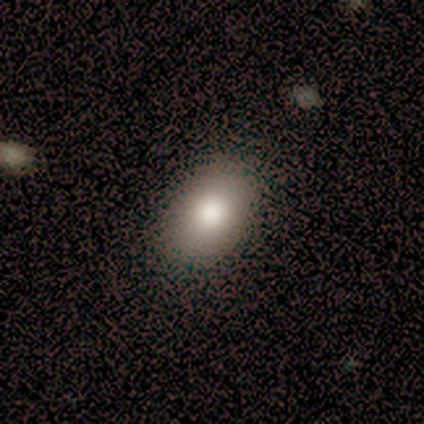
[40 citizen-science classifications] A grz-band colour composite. It shows a smooth galaxy with no disk features (88%) that is in between round and cigar-shaped (91%). Merging: none (74%).